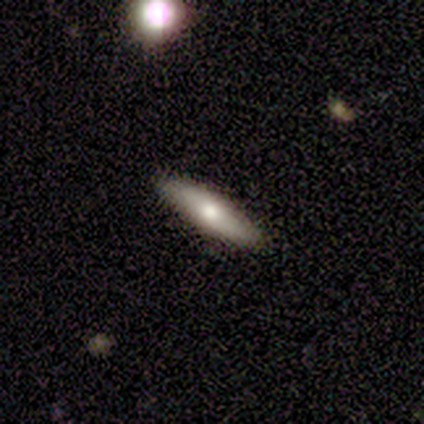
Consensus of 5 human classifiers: Smooth or featured: smooth — 100%
How rounded: cigar-shaped — 80% (in between — 20%)
Merging: none — 80% (minor disturbance — 20%)